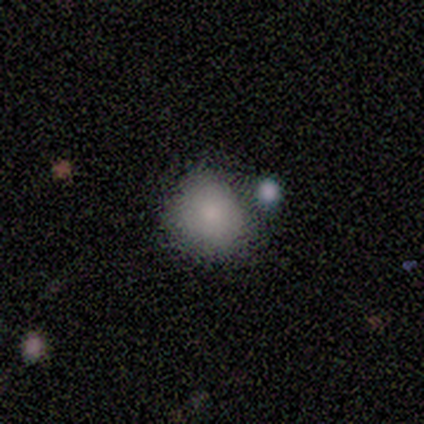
smooth_or_featured: smooth (p=1.00)
how_rounded: in between (p=0.60) [alt: round p=0.40]
merging: minor disturbance (p=0.60) [alt: none p=0.20]